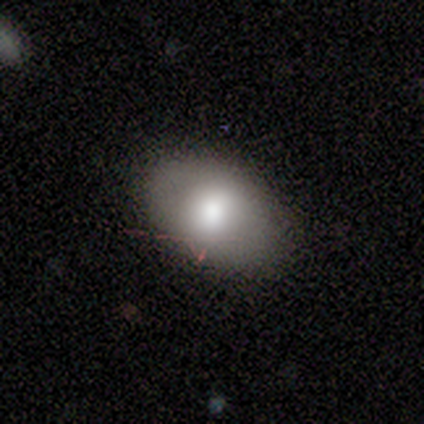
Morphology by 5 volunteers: A smooth galaxy with no disk features (60%) that is in between round and cigar-shaped (100%).

Vote fractions:
- Smooth or featured? smooth: 60% / star or artifact: 40% / featured or disk: 0%
- How rounded? in between: 100% / round: 0% / cigar-shaped: 0%
- Merging? none: 100% / minor disturbance: 0% / major disturbance: 0% / merger: 0%